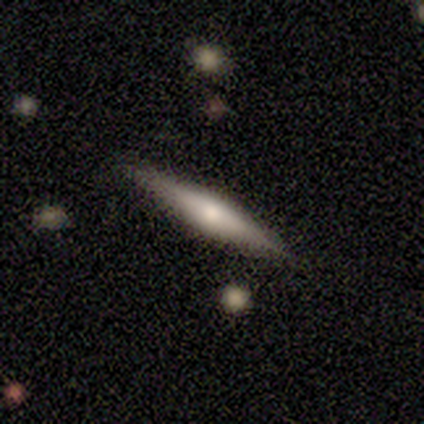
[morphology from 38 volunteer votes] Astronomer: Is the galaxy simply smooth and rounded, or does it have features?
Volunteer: featured or disk — 63%.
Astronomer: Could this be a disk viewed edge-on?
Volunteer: yes — 88%.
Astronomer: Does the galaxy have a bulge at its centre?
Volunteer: rounded — 90%.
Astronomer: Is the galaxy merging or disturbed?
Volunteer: none — 81%.